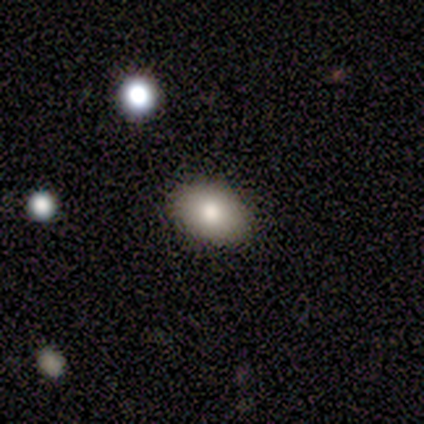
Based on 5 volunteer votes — smooth-or-featured: smooth: 60% | featured or disk: 20% | star or artifact: 20%
  how-rounded: in between: 67% | round: 33% | cigar-shaped: 0%
  merging: none: 100% | minor disturbance: 0% | major disturbance: 0% | merger: 0%